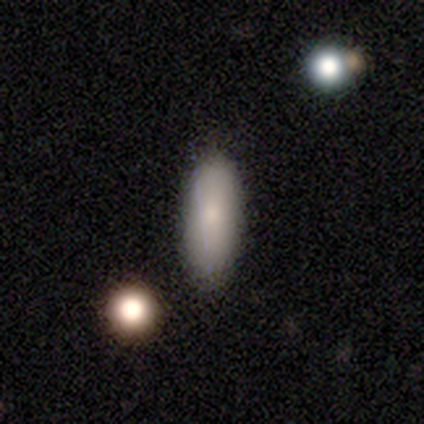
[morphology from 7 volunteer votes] Smooth or featured? smooth (100%)
How rounded? in between (86%)
Merging? none (100%)